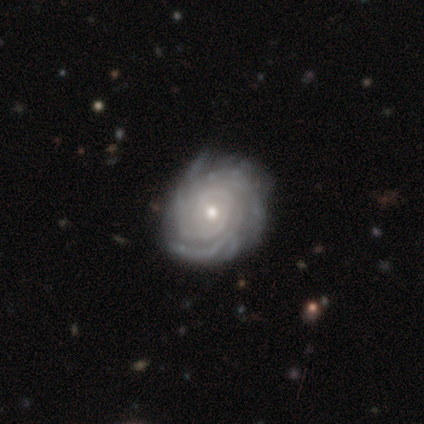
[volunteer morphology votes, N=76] Overall: featured or disk (97%). Edge-on disk: no (100%). Bar: no (82%). Spiral arms: yes (99%). Spiral arm count: can't tell (36%; more than 4 29%). Spiral winding: tight (84%). Bulge size: moderate (50%; small 49%). Merging: none (89%).